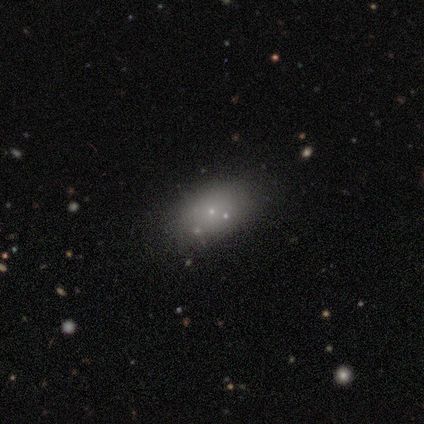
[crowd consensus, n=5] Smooth or featured?
  - smooth: 80% *
  - star or artifact: 20%
  - featured or disk: 0%
How rounded?
  - in between: 75% *
  - round: 25%
  - cigar-shaped: 0%
Merging?
  - none: 50% * (tied)
  - merger: 50% * (tied)
  - minor disturbance: 0%
  - major disturbance: 0%